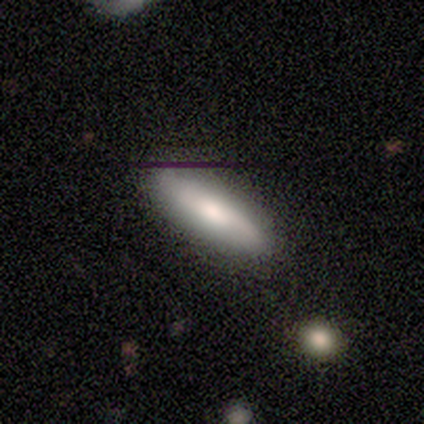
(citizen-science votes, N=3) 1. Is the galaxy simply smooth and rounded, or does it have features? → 67% smooth, 33% star or artifact, 0% featured or disk.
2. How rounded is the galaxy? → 100% cigar-shaped, 0% round, 0% in between.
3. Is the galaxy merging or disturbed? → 50% none (tied), 50% minor disturbance (tied), 0% major disturbance, 0% merger.